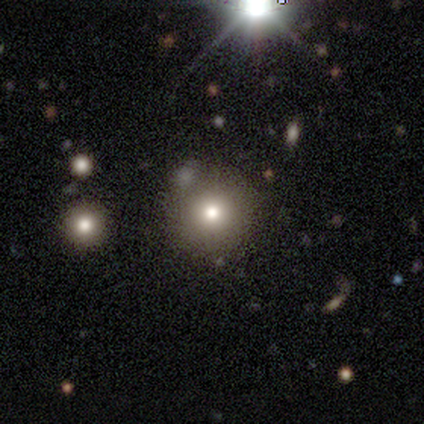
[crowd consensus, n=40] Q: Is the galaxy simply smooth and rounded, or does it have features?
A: smooth — 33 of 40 (82%).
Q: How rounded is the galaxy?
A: round — 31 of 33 (94%).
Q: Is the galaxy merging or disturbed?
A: none — 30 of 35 (86%).